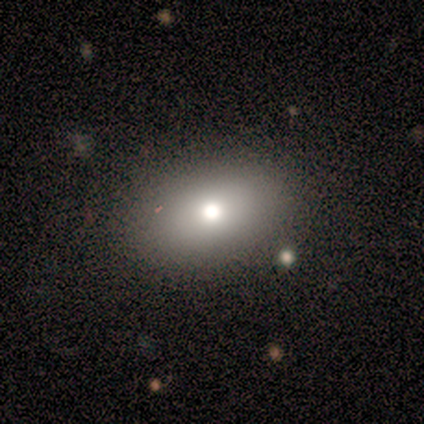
This appears to be a smooth galaxy with no disk features (100%) that is in between round and cigar-shaped (75%). Merging: none (75%).